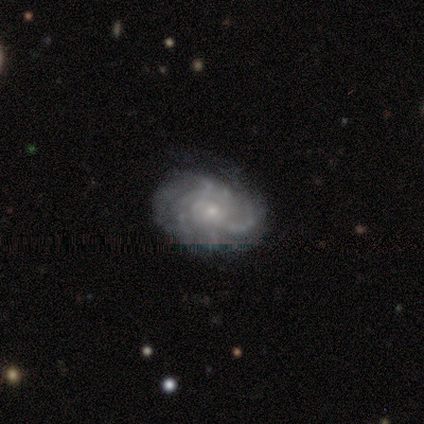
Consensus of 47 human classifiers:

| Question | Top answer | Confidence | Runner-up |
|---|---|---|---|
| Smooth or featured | featured or disk | 91% | smooth (4%) |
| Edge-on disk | no | 98% | yes (2%) |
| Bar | no | 86% | weak (14%) |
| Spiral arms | yes | 93% | no (7%) |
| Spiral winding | tight | 69% | medium (18%) |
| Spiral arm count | can't tell | 59% | more than 4 (15%) |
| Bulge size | small | 76% | moderate (21%) |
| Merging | none | 76% | minor disturbance (16%) |